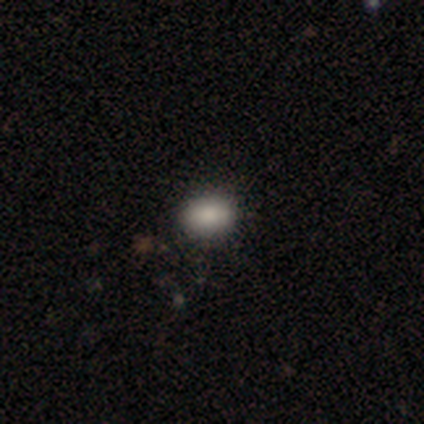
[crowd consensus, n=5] This is clearly a smooth galaxy (80%). How rounded: possibly round (50%, tied with in between). Merging: likely none (75%).